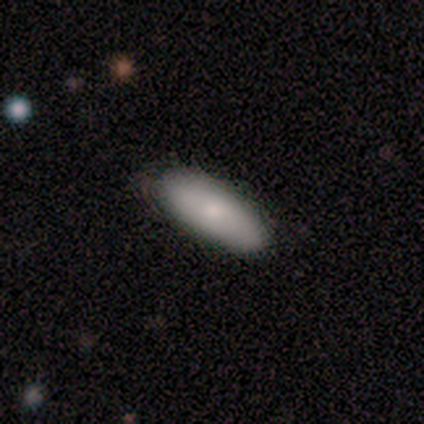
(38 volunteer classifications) Morphology: type=smooth (84%); roundness=in between (84%); merging=none (61%).